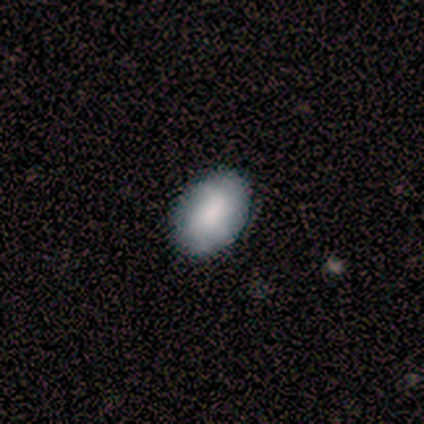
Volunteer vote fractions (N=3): A smooth galaxy with no disk features (100%) that is in between round and cigar-shaped (100%).

Vote fractions:
- Smooth or featured? smooth: 100% / featured or disk: 0% / star or artifact: 0%
- How rounded? in between: 100% / round: 0% / cigar-shaped: 0%
- Merging? none: 100% / minor disturbance: 0% / major disturbance: 0% / merger: 0%